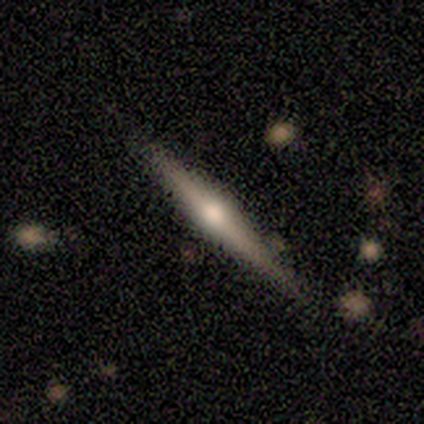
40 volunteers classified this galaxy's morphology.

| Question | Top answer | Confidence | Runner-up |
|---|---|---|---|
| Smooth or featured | featured or disk | 72% | smooth (28%) |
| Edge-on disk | yes | 100% | — |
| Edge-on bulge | rounded | 97% | boxy (3%) |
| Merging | none | 82% | minor disturbance (10%) |